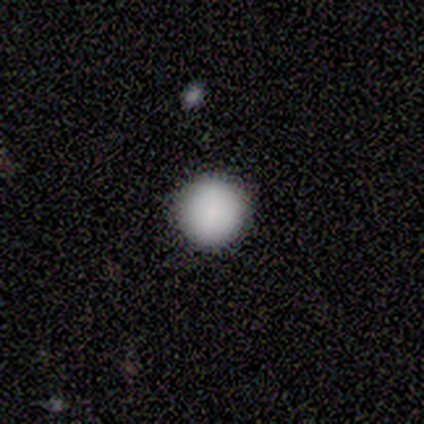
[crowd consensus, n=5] Overall: smooth (100%). How rounded: round (100%). Merging: none (100%).